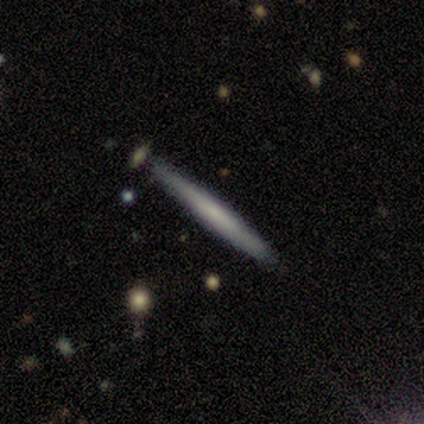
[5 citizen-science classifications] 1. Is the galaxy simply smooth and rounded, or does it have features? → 60% smooth, 40% featured or disk, 0% star or artifact.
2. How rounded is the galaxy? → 100% cigar-shaped, 0% round, 0% in between.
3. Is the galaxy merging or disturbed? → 80% none, 20% minor disturbance, 0% major disturbance, 0% merger.